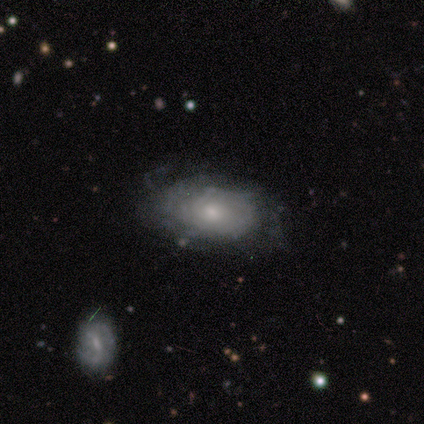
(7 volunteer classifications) A featured or disk galaxy (71%) with no bar (80%), 2 (33%, tied with more than 4 and can't tell) tight (67%) spiral arms (60%) and a small central bulge (60%). Merging: none (71%).